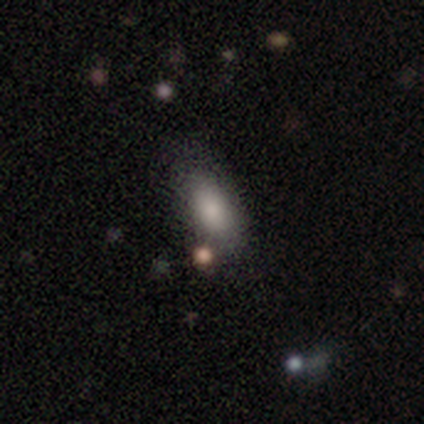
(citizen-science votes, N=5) Smooth or featured? smooth (100%)
How rounded? in between (80%)
Merging? none (100%)